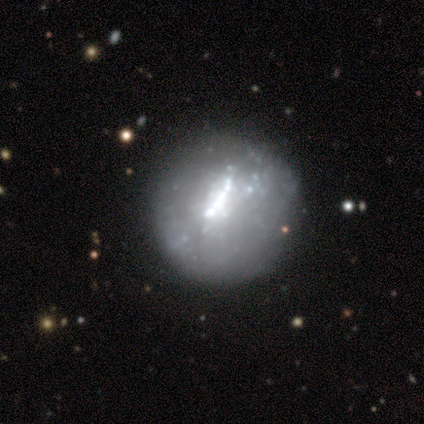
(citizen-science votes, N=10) This appears to be a featured or disk galaxy (60%) with no bar (100%), no spiral arms (100%) and a moderate central bulge (67%). Merging: none (90%).